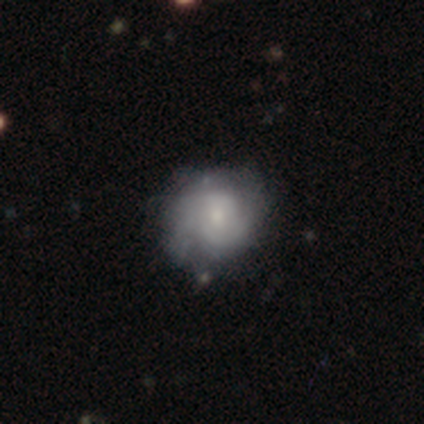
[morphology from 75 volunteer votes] featured or disk 65%, smooth 31%, star or artifact 4%. Down the decision tree: edge-on disk — no (100%); bar — no (84%); spiral arms — yes (86%); spiral arm count — 2 (60%); spiral winding — tight (69%); bulge size — small (41%); merging — none (35%).